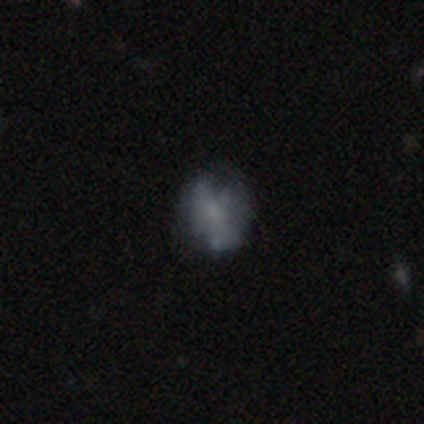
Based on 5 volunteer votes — A smooth galaxy with no disk features (60%) that is round (100%). Merging: none (60%).